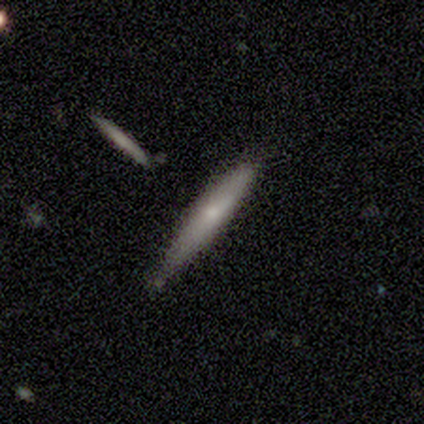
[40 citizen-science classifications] Smooth or featured?
  - smooth: 52% *
  - featured or disk: 42%
  - star or artifact: 5%
How rounded?
  - cigar-shaped: 95% *
  - in between: 5%
  - round: 0%
Merging?
  - none: 82% *
  - minor disturbance: 16%
  - merger: 3%
  - major disturbance: 0%